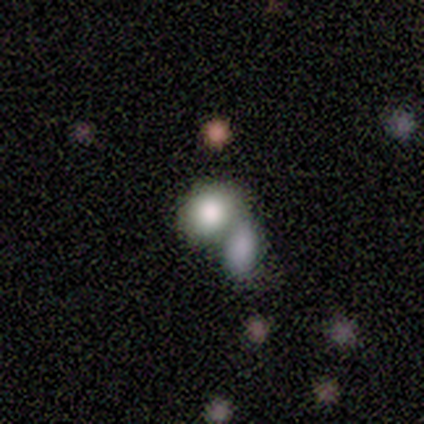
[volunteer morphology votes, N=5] A smooth galaxy with no disk features (80%) that is round (75%). Merging: none (40%, tied with merger).